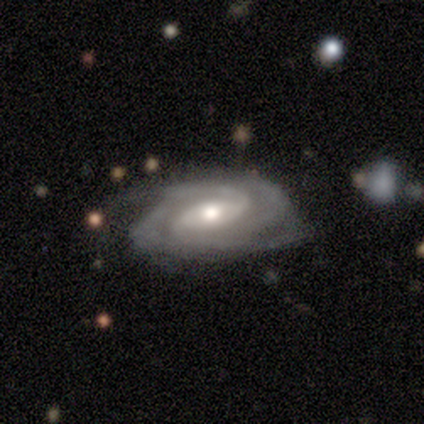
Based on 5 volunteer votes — featured or disk 80%, smooth 20%, star or artifact 0%. Down the decision tree: edge-on disk — no (100%); bar — weak (50%); spiral arms — yes (100%); spiral arm count — 2 (75%); spiral winding — medium (75%); bulge size — moderate (100%); merging — none (100%).